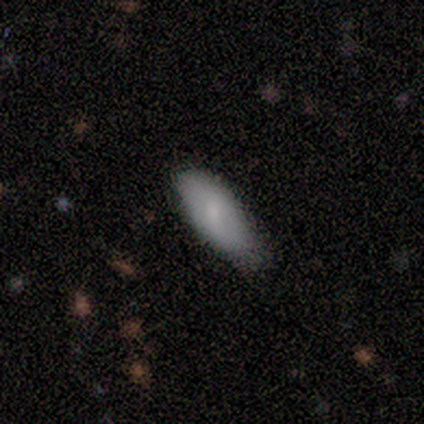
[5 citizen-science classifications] Smooth or featured: smooth — 80% (star or artifact — 20%)
How rounded: in between — 75% (cigar-shaped — 25%)
Merging: none — 100%